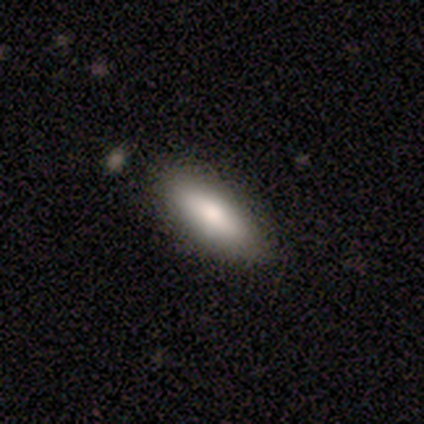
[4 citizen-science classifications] smooth 100%, featured or disk 0%, star or artifact 0%. Down the decision tree: how rounded — in between (75%); merging — none (75%).